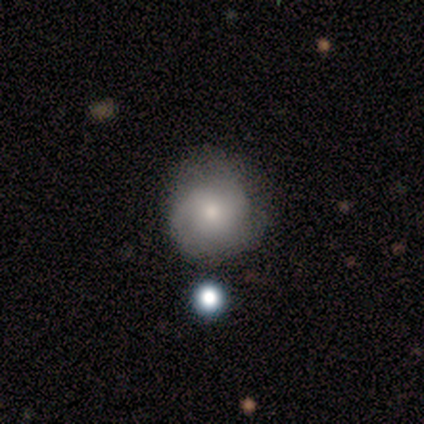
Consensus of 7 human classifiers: A featured or disk galaxy (71%) with no bar (100%), no spiral arms (75%) and a small central bulge (75%).

Vote fractions:
- Smooth or featured? featured or disk: 71% / smooth: 14% / star or artifact: 14%
- Edge-on disk? no: 80% / yes: 20%
- Bar? no: 100% / strong: 0% / weak: 0%
- Spiral arms? no: 75% / yes: 25%
- Bulge size? small: 75% / moderate: 25% / dominant: 0% / large: 0% / none: 0%
- Merging? none: 83% / major disturbance: 17% / minor disturbance: 0% / merger: 0%